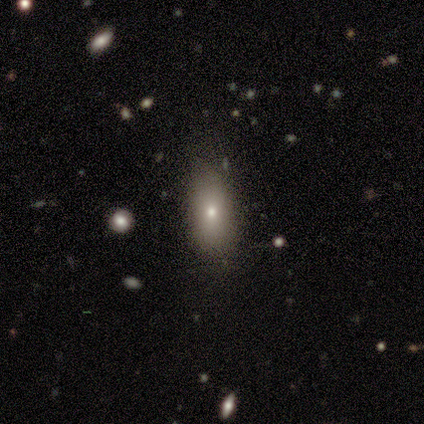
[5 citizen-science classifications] This appears to be a smooth galaxy with no disk features (80%) that is in between round and cigar-shaped (75%). Merging: none (100%).